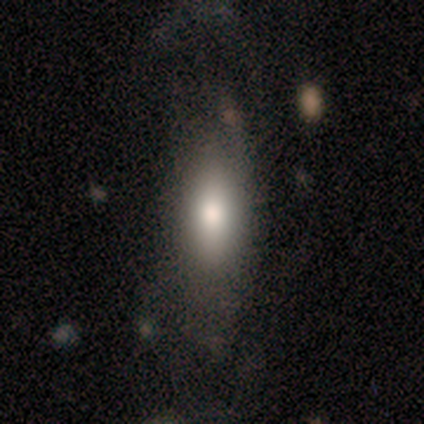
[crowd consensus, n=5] Volunteers were most divided on "merging": none: 50%, minor disturbance: 25%, merger: 25%, major disturbance: 0%. More confident: how rounded — in between (67%); smooth or featured — smooth (60%).